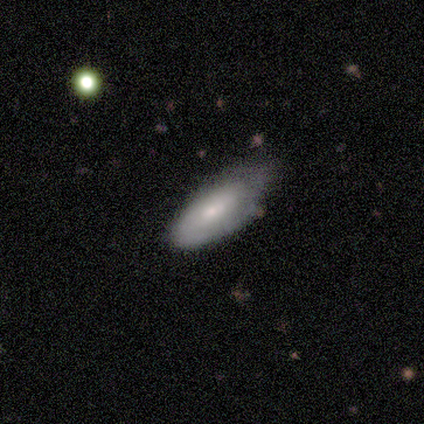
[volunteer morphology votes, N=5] smooth 60%, featured or disk 40%, star or artifact 0%. Down the decision tree: how rounded — in between (67%); merging — none (60%).